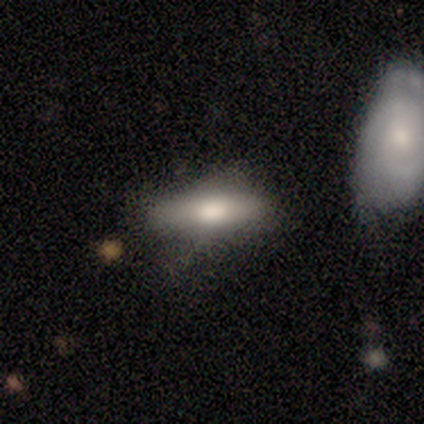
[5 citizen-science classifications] Smooth or featured: smooth — 100%
How rounded: in between — 60% (cigar-shaped — 40%)
Merging: none — 100%